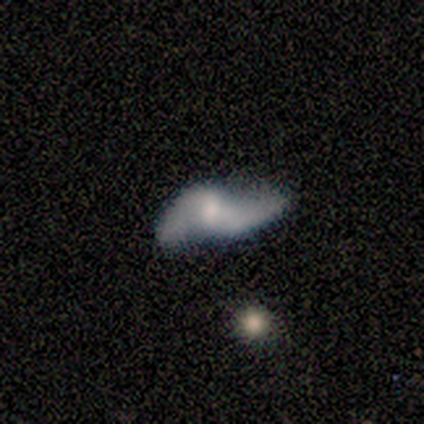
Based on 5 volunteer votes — Smooth or featured? 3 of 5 (60%) said featured or disk. Edge-on disk? 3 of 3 (100%) said no. Bar? 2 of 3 (67%) said weak. Spiral arms? 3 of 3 (100%) said yes. Spiral winding? 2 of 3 (67%) said loose. Spiral arm count? 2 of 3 (67%) said 2. Bulge size? 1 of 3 (33%, tied with small and none) said moderate. Merging? 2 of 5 (40%, tied with major disturbance) said none.